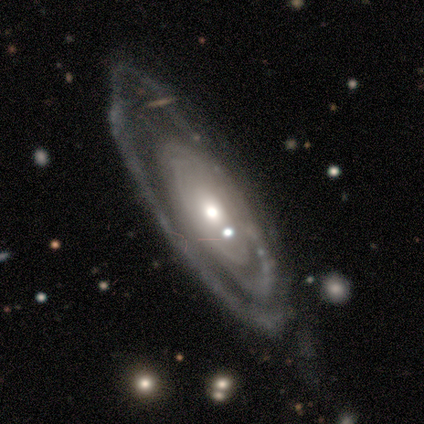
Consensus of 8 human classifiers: Smooth or featured: featured or disk — 100%
Edge-on disk: no — 88% (yes — 12%)
Bar: no — 86% (weak — 14%)
Spiral arms: yes — 86% (no — 14%)
Spiral winding: tight — 50% (tied with medium — 50%)
Spiral arm count: 2 — 50% (can't tell — 33%)
Bulge size: moderate — 71% (large — 14%)
Merging: none — 75% (minor disturbance — 12%)